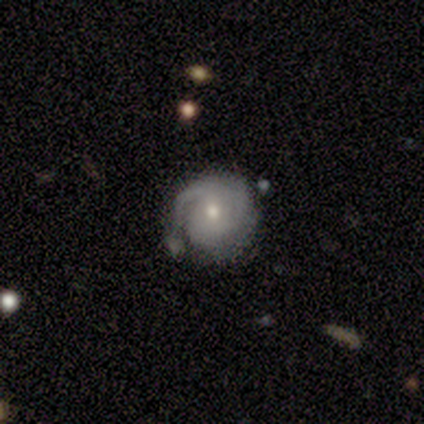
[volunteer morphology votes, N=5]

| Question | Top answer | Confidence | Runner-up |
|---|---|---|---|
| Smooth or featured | featured or disk | 100% | — |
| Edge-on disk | no | 100% | — |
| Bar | no | 60% | weak (40%) |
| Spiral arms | yes | 100% | — |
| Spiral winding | tight | 80% | medium (20%) |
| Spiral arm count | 2 | 40% | tied: can't tell (40%) |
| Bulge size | small | 60% | moderate (40%) |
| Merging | minor disturbance | 100% | — |